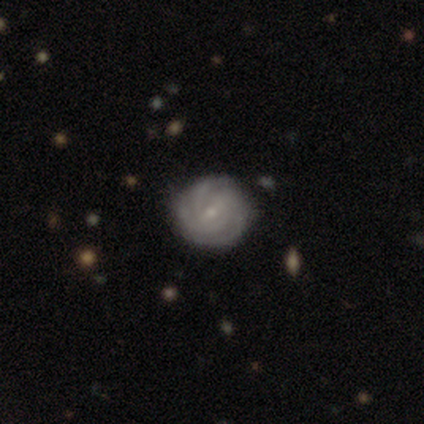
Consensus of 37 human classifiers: A featured or disk galaxy (81%) with no bar (48%), 3 (43%) tight (82%) spiral arms (97%) and a small central bulge (79%). Merging: none (100%).